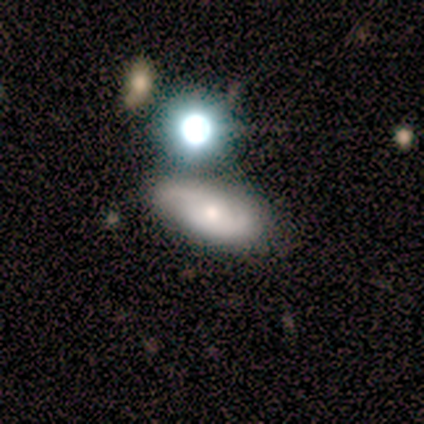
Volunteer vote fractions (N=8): smooth 75%, featured or disk 25%, star or artifact 0%. Down the decision tree: how rounded — round (50%); merging — minor disturbance (50%).